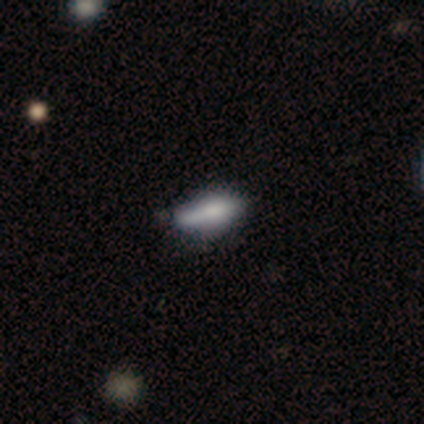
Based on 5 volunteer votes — This is likely a smooth galaxy (60%). How rounded: likely cigar-shaped (67%). Merging: marginally minor disturbance (40%, tied with merger).